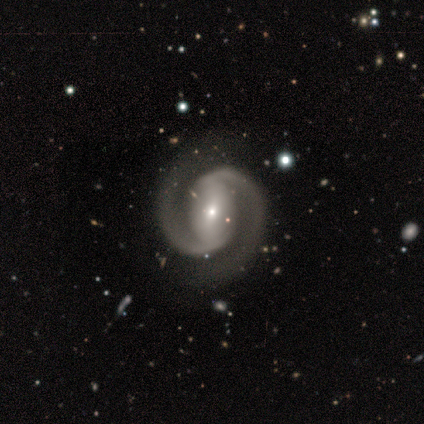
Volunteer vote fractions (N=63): Smooth or featured? featured or disk (98%)
Edge-on disk? no (97%)
Bar? weak (45%)
Spiral arms? yes (98%)
Spiral winding? medium (61%)
Spiral arm count? 2 (97%)
Bulge size? small (67%)
Merging? none (58%)